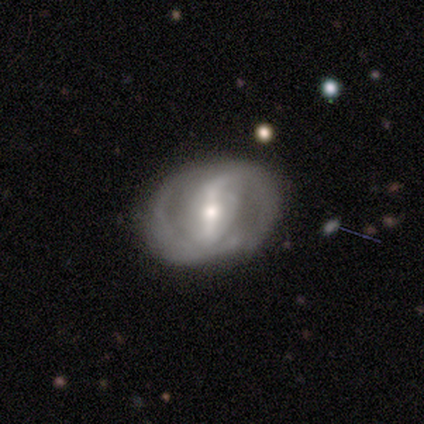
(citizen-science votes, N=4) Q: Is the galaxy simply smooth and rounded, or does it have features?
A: featured or disk — 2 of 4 (50%).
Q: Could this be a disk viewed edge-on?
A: no — 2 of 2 (100%).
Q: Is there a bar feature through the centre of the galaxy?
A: strong — 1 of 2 (50%, tied with no).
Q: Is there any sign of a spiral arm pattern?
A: yes — 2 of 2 (100%).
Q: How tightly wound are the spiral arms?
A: medium — 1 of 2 (50%, tied with loose).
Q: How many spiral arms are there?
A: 2 — 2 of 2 (100%).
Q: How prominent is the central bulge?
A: small — 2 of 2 (100%).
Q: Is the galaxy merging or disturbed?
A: none — 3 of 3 (100%).